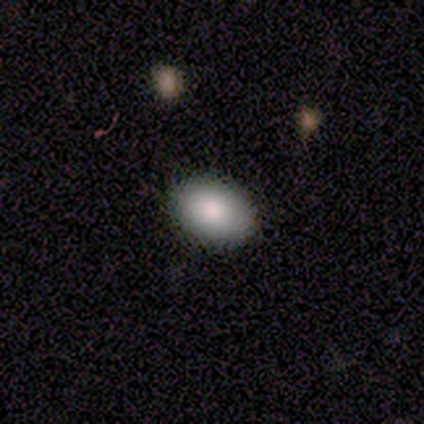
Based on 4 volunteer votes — Volunteers were most divided on "how rounded": in between: 75%, round: 25%, cigar-shaped: 0%. More confident: smooth or featured — smooth (100%); merging — none (100%).